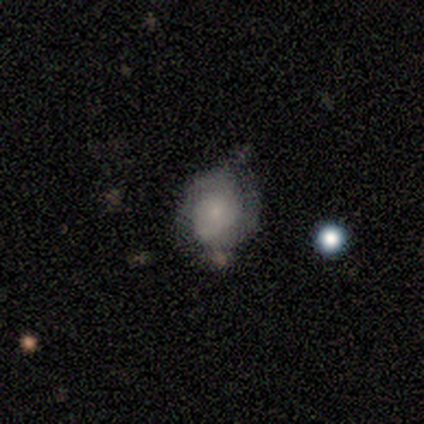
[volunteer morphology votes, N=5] A smooth galaxy with no disk features (80%) that is round (50%, tied with in between). Merging: none (60%).